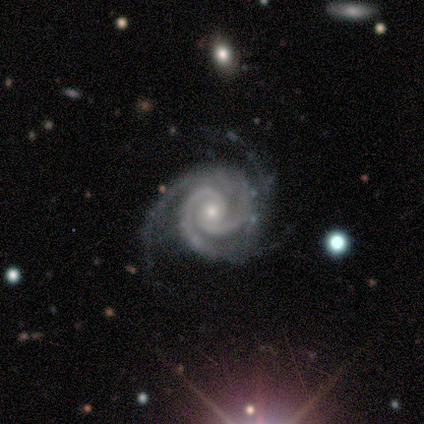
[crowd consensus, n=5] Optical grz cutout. It shows a featured or disk galaxy (100%) with no bar (100%), 2 (100%) tight (60%) spiral arms (100%) and a small central bulge (60%). Merging: none (80%).